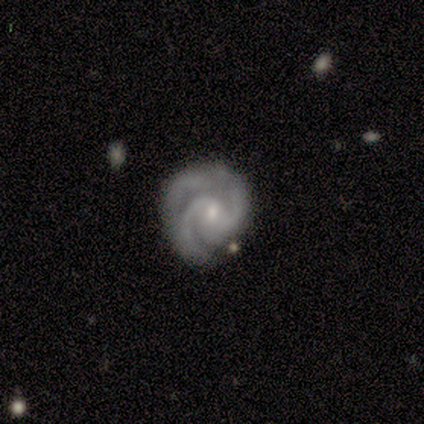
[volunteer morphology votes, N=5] Smooth or featured? 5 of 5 (100%) said featured or disk. Edge-on disk? 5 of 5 (100%) said no. Bar? 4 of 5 (80%) said no. Spiral arms? 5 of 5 (100%) said yes. Spiral winding? 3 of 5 (60%) said medium. Spiral arm count? 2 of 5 (40%, tied with 3) said 2. Bulge size? 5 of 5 (100%) said small. Merging? 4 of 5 (80%) said none.